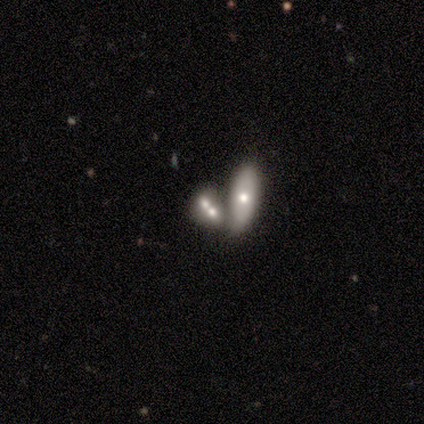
smooth 50% (tied), featured or disk 50% (tied), star or artifact 0%. Down the decision tree: how rounded — in between (100%); merging — merger (75%).